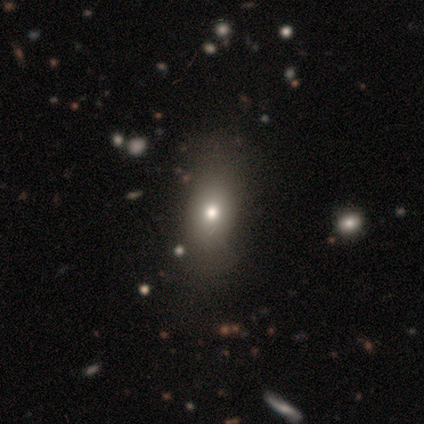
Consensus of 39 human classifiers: This is likely a smooth galaxy (74%). How rounded: likely in between (69%). Merging: possibly none (47%).